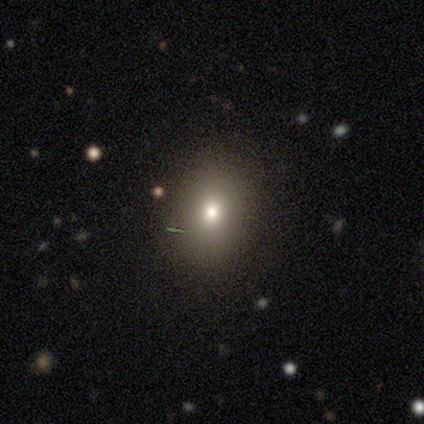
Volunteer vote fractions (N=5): smooth-or-featured: smooth: 60% | featured or disk: 20% | star or artifact: 20%
  how-rounded: round: 67% | in between: 33% | cigar-shaped: 0%
  merging: none: 75% | minor disturbance: 25% | major disturbance: 0% | merger: 0%